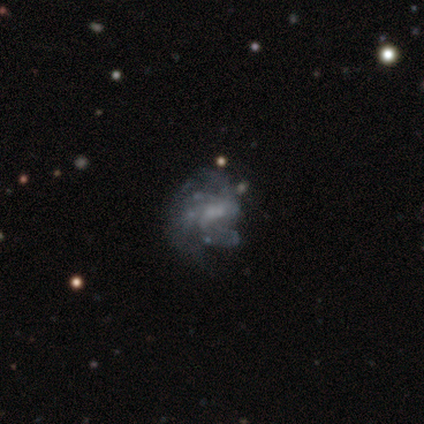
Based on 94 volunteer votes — Smooth or featured? featured or disk (84%)
Edge-on disk? no (100%)
Bar? no (58%)
Spiral arms? yes (71%)
Spiral winding? tight (36%)
Spiral arm count? can't tell (41%)
Bulge size? small (46%)
Merging? none (39%)